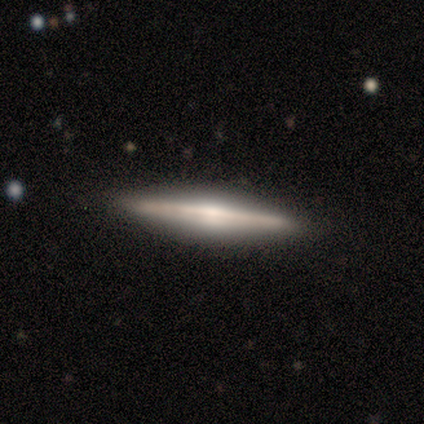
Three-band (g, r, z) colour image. It shows a featured or disk galaxy (80%) viewed edge-on (100%) with a rounded central bulge (75%). Merging: none (100%).